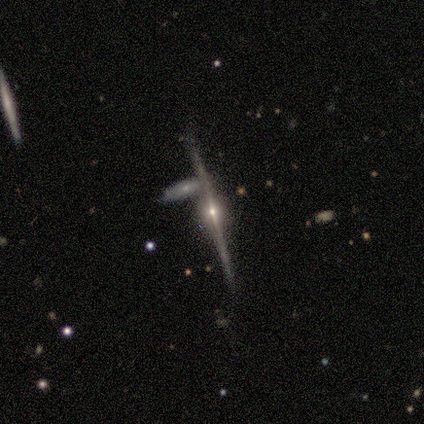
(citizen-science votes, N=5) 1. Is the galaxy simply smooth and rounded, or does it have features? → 80% featured or disk, 20% smooth, 0% star or artifact.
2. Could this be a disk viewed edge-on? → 75% yes, 25% no.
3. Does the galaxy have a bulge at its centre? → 100% rounded, 0% boxy, 0% none.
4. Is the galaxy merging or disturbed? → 100% none, 0% minor disturbance, 0% major disturbance, 0% merger.